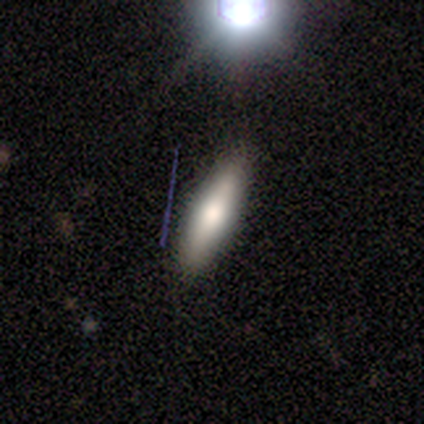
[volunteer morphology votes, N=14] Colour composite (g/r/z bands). It shows a smooth galaxy with no disk features (79%) that is cigar-shaped (64%). Merging: none (86%).